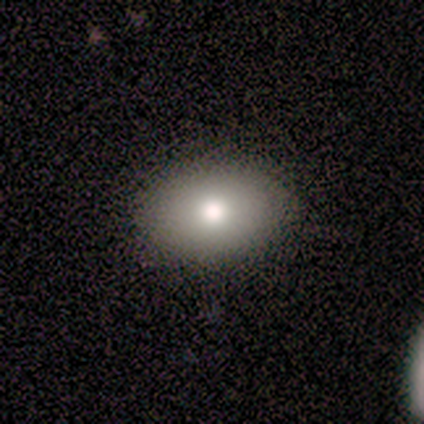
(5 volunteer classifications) smooth_or_featured: smooth (p=0.80) [alt: featured or disk p=0.20]
how_rounded: in between (p=1.00)
merging: none (p=0.80) [alt: minor disturbance p=0.20]